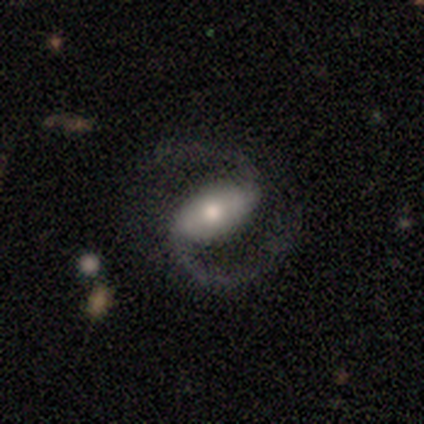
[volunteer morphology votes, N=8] A featured or disk galaxy (88%) with no bar (43%), 2 (100%) medium (57%) spiral arms (100%) and a moderate central bulge (71%).

Vote fractions:
- Smooth or featured? featured or disk: 88% / smooth: 12% / star or artifact: 0%
- Edge-on disk? no: 100% / yes: 0%
- Bar? no: 43% / strong: 29% / weak: 29%
- Spiral arms? yes: 100% / no: 0%
- Spiral winding? medium: 57% / tight: 43% / loose: 0%
- Spiral arm count? 2: 100% / 1: 0% / 3: 0% / 4: 0% / more than 4: 0% / can't tell: 0%
- Bulge size? moderate: 71% / small: 29% / dominant: 0% / large: 0% / none: 0%
- Merging? none: 100% / minor disturbance: 0% / major disturbance: 0% / merger: 0%